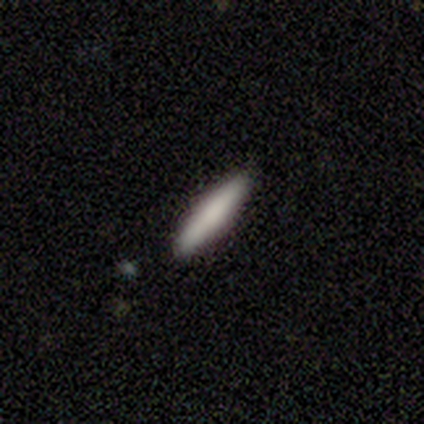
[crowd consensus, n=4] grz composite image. It shows a smooth galaxy with no disk features (100%) that is cigar-shaped (75%). Merging: none (100%).